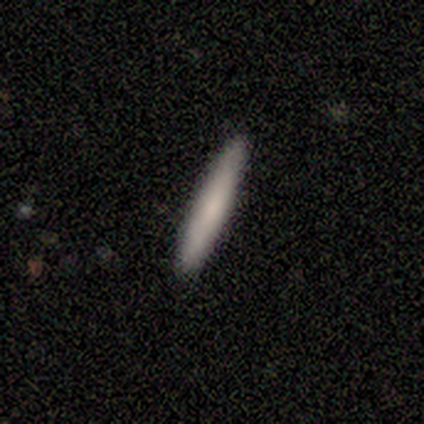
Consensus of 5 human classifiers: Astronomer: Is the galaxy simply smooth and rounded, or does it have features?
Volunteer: smooth — 80%.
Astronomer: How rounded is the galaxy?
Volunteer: cigar-shaped — 100%.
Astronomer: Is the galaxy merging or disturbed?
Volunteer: none — 100%.